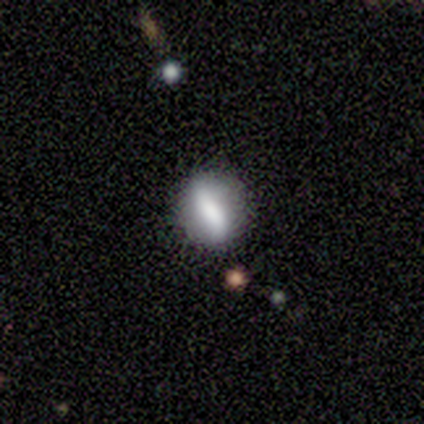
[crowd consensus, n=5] This is likely a featured or disk galaxy (60%). It is clearly not viewed edge-on (100%). Bar: likely strong (67%). Spiral arm pattern: likely no (67%). Central bulge: likely none (67%). Merging: clearly none (100%).